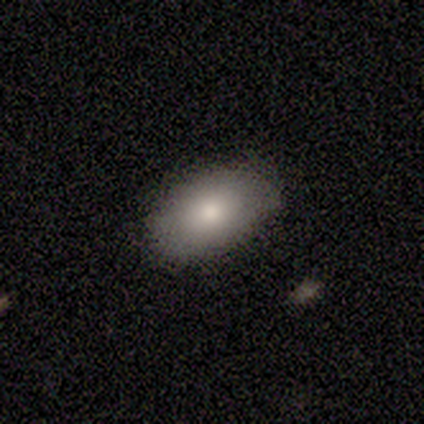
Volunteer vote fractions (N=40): This appears to be a smooth galaxy with no disk features (78%) that is in between round and cigar-shaped (94%). Merging: none (69%).